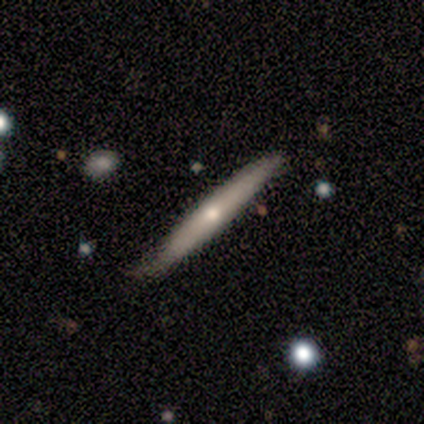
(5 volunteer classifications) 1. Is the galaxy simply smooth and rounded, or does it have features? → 100% featured or disk, 0% smooth, 0% star or artifact.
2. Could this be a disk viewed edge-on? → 100% yes, 0% no.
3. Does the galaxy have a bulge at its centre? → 60% rounded, 40% none, 0% boxy.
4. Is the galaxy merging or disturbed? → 60% minor disturbance, 40% none, 0% major disturbance, 0% merger.